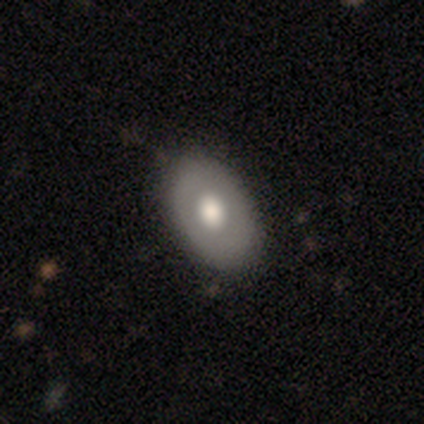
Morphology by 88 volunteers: Smooth or featured? 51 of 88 (58%) said smooth. How rounded? 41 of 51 (80%) said in between. Merging? 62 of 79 (78%) said none.